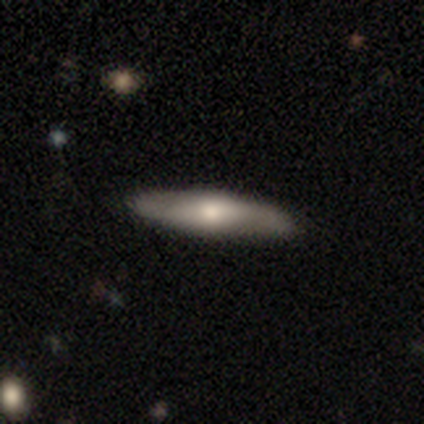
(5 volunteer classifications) Overall: smooth (80%). How rounded: cigar-shaped (75%). Merging: none (100%).